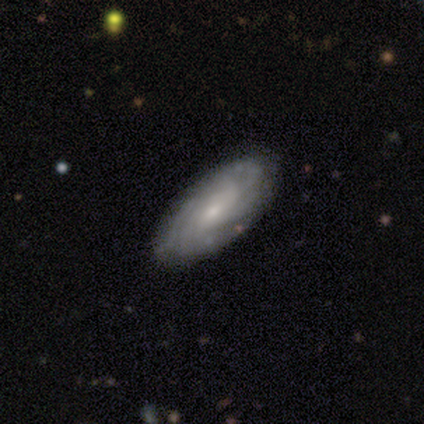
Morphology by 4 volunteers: Smooth or featured? featured or disk (100%)
Edge-on disk? no (75%)
Bar? no (67%)
Spiral arms? yes (100%)
Spiral winding? medium (67%)
Spiral arm count? can't tell (67%)
Bulge size? small (67%)
Merging? none (50%)